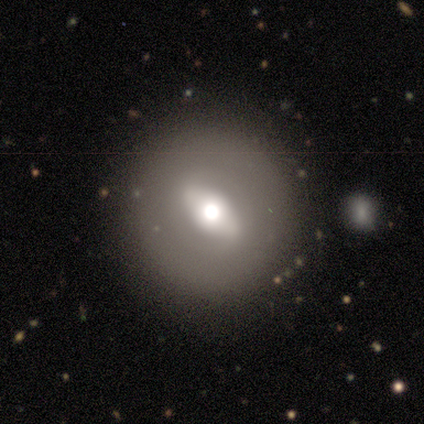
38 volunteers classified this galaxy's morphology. A featured or disk galaxy (50%) with a strong bar (53%), no spiral arms (80%) and a large central bulge (47%). Merging: none (86%).